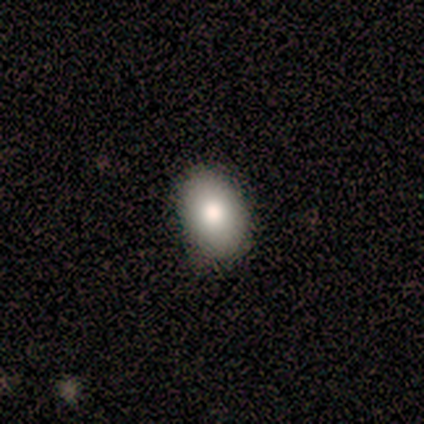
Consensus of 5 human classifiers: Smooth or featured: smooth — 60% (star or artifact — 40%)
How rounded: in between — 100%
Merging: none — 100%